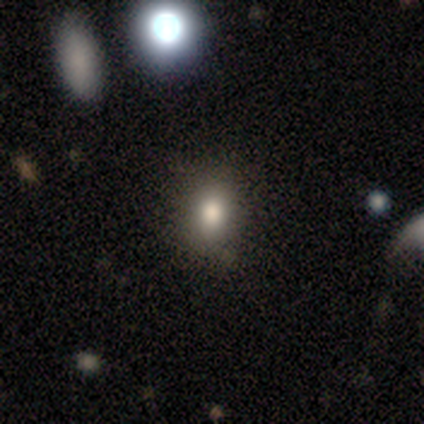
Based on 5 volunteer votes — Smooth or featured: smooth — 80% (star or artifact — 20%)
How rounded: round — 50% (tied with in between — 50%)
Merging: none — 75% (major disturbance — 25%)